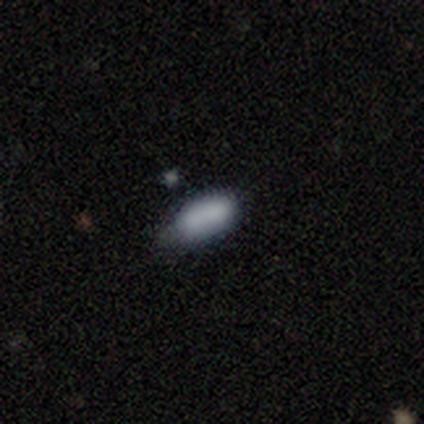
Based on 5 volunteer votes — Overall: smooth (80%). How rounded: in between (100%). Merging: none (60%; minor disturbance 40%).